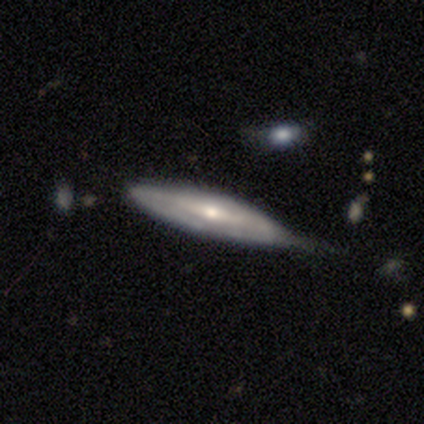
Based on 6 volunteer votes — Smooth or featured: featured or disk — 100%
Edge-on disk: yes — 67% (no — 33%)
Edge-on bulge: rounded — 75% (boxy — 25%)
Merging: minor disturbance — 67% (none — 33%)